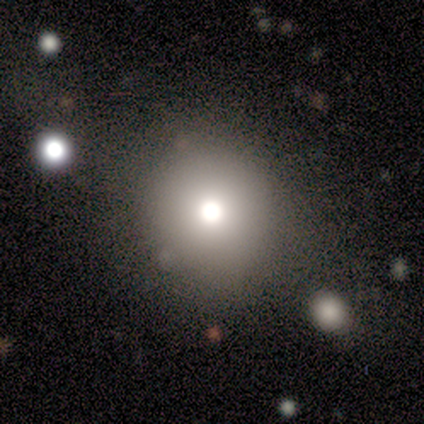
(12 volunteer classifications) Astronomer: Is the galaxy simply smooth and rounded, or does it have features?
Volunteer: smooth — 75%.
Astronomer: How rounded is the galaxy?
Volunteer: round — 100%.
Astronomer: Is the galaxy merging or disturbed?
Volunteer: none — 91%.